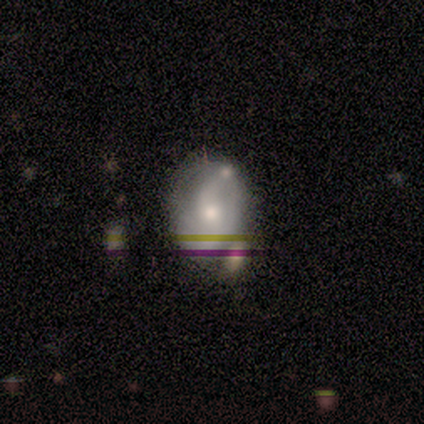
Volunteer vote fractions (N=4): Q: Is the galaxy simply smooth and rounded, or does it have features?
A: smooth — 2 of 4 (50%, tied with featured or disk).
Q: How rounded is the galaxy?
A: in between — 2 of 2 (100%).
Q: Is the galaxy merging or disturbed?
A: minor disturbance — 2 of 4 (50%).